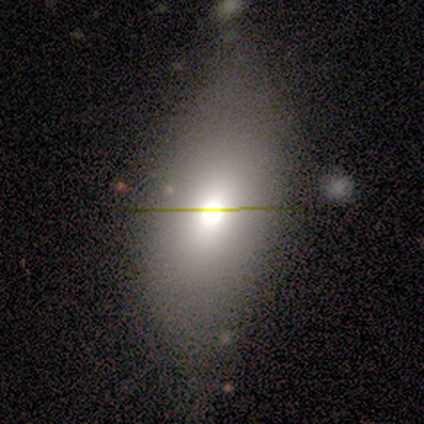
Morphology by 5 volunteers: Smooth or featured? 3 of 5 (60%) said smooth. How rounded? 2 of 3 (67%) said in between. Merging? 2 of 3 (67%) said none.